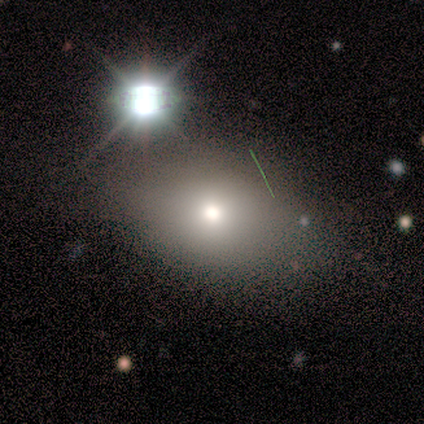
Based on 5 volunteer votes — smooth 60%, star or artifact 40%, featured or disk 0%. Down the decision tree: how rounded — in between (67%); merging — none (100%).